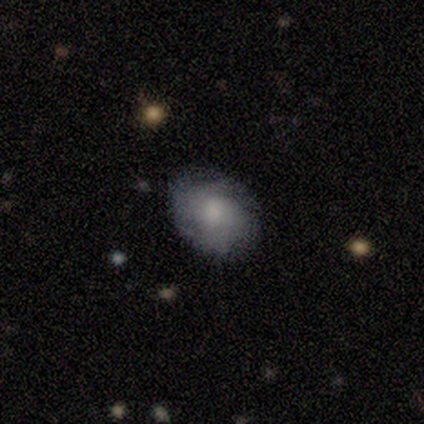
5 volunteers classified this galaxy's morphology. Smooth or featured?
  - featured or disk: 80% *
  - smooth: 20%
  - star or artifact: 0%
Edge-on disk?
  - no: 100% *
  - yes: 0%
Bar?
  - no: 50% *
  - strong: 25%
  - weak: 25%
Spiral arms?
  - yes: 100% *
  - no: 0%
Spiral winding?
  - tight: 50% *
  - medium: 25%
  - loose: 25%
Spiral arm count?
  - 2: 50% * (tied)
  - can't tell: 50% * (tied)
  - 1: 0%
  - 3: 0%
  - 4: 0%
  - more than 4: 0%
Bulge size?
  - moderate: 75% *
  - small: 25%
  - dominant: 0%
  - large: 0%
  - none: 0%
Merging?
  - none: 100% *
  - minor disturbance: 0%
  - major disturbance: 0%
  - merger: 0%